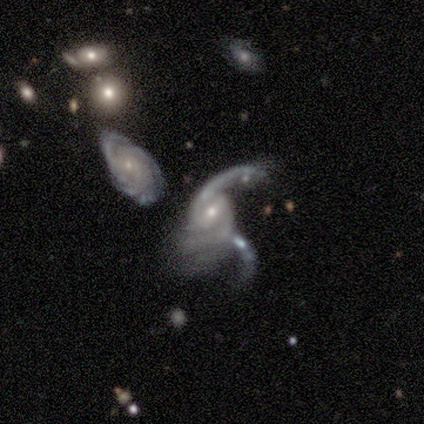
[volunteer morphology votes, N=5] Q: Smooth or featured?
A: featured or disk (100%)
Q: Edge-on disk?
A: no (100%)
Q: Bar?
A: no (60%); runner-up: weak (40%)
Q: Spiral arms?
A: yes (100%)
Q: Spiral winding?
A: tight (40%); tied with: loose (40%)
Q: Spiral arm count?
A: 2 (60%); runner-up: more than 4 (20%)
Q: Bulge size?
A: small (60%); runner-up: moderate (40%)
Q: Merging?
A: merger (80%); runner-up: major disturbance (20%)